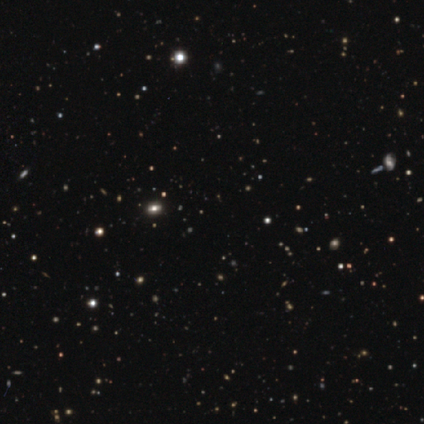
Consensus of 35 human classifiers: A star or artifact, not a galaxy (77%).

Vote fractions:
- Smooth or featured? star or artifact: 77% / smooth: 11% / featured or disk: 11%